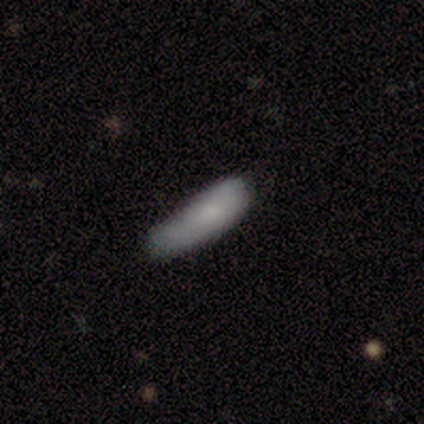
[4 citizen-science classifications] This appears to be a smooth galaxy with no disk features (75%) that is in between round and cigar-shaped (67%). Merging: minor disturbance (67%).